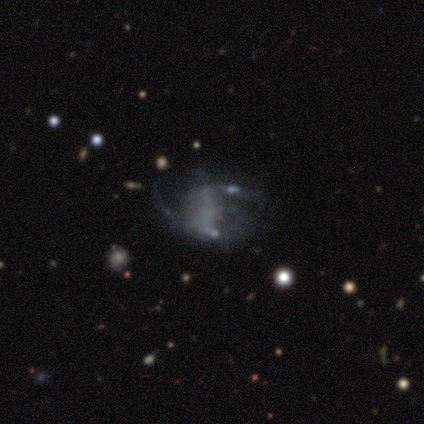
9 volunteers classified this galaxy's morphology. Smooth or featured? featured or disk (56%)
Edge-on disk? no (100%)
Bar? no (100%)
Spiral arms? no (60%)
Bulge size? none (100%)
Merging? none (43%)